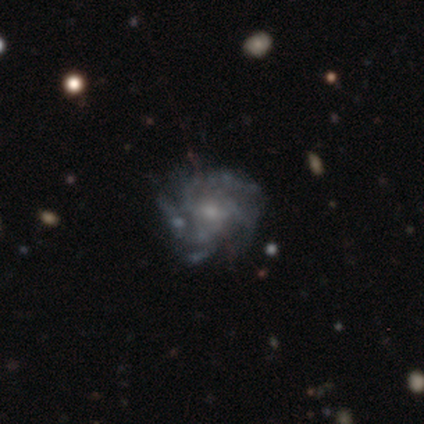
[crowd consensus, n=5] Smooth or featured? featured or disk (60%)
Edge-on disk? no (100%)
Bar? no (67%)
Spiral arms? yes (100%)
Spiral winding? tight (33%, tied with medium and loose)
Spiral arm count? 3 (33%, tied with 4 and can't tell)
Bulge size? moderate (67%)
Merging? none (50%)